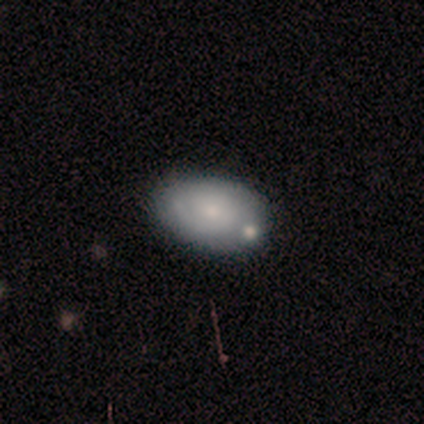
Morphology: type=smooth (53%); roundness=in between (80%); merging=none (76%).